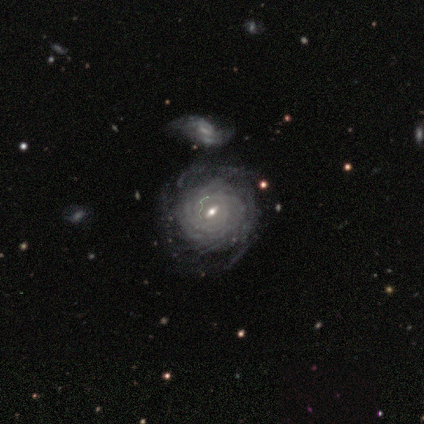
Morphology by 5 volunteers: A featured or disk galaxy (100%) with a weak bar (80%), more than 4 (60%) tight (80%) spiral arms (100%) and a small central bulge (60%). Merging: none (80%).